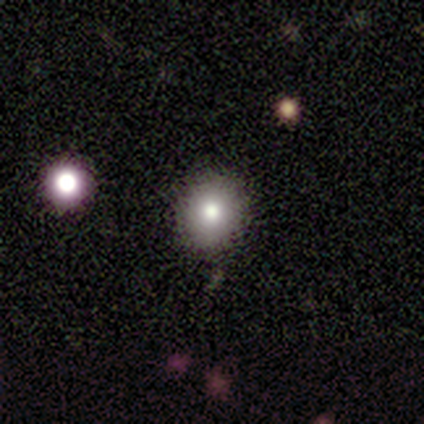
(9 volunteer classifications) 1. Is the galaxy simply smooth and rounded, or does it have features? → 78% smooth, 22% star or artifact, 0% featured or disk.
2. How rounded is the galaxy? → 86% round, 14% in between, 0% cigar-shaped.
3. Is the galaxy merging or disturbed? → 71% none, 29% minor disturbance, 0% major disturbance, 0% merger.